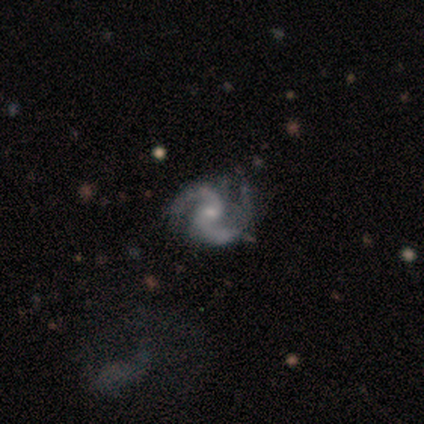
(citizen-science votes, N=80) Smooth or featured? featured or disk (96%)
Edge-on disk? no (99%)
Bar? no (62%)
Spiral arms? yes (100%)
Spiral winding? medium (66%)
Spiral arm count? 2 (96%)
Bulge size? small (68%)
Merging? none (30%)